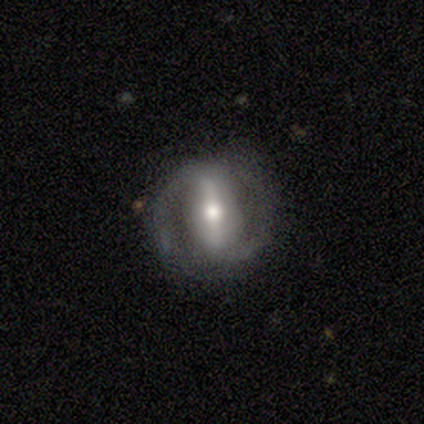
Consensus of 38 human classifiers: Smooth or featured? featured or disk (61%)
Edge-on disk? no (91%)
Bar? strong (71%)
Spiral arms? yes (81%)
Spiral winding? medium (47%)
Spiral arm count? 2 (88%)
Bulge size? moderate (71%)
Merging? none (66%)